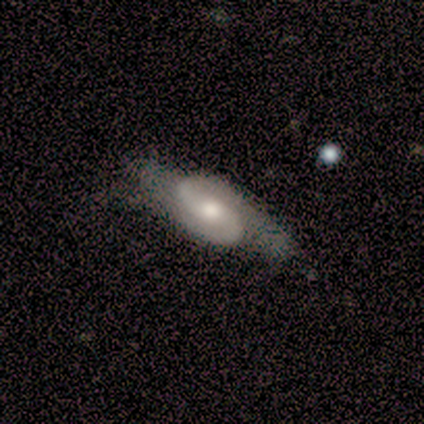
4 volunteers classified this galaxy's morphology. smooth_or_featured: featured or disk (p=0.75) [alt: smooth p=0.25]
disk_edge_on: no (p=1.00)
bar: no (p=0.67) [alt: strong p=0.33]
has_spiral_arms: yes (p=1.00)
spiral_winding: tight (p=0.67) [alt: loose p=0.33]
spiral_arm_count: 2 (p=1.00)
bulge_size: moderate (p=0.67) [alt: large p=0.33]
merging: none (p=0.50) [alt: minor disturbance p=0.25]